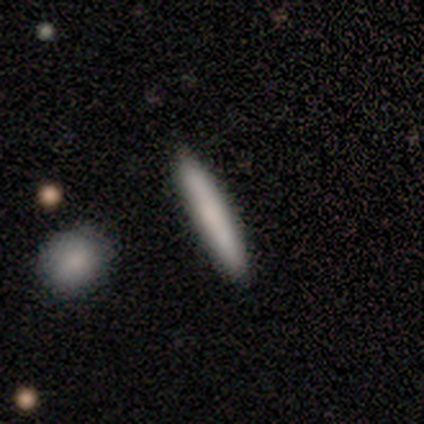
Q: Smooth or featured?
A: smooth (50%); tied with: featured or disk (50%)
Q: How rounded?
A: cigar-shaped (100%)
Q: Merging?
A: none (83%); runner-up: major disturbance (17%)